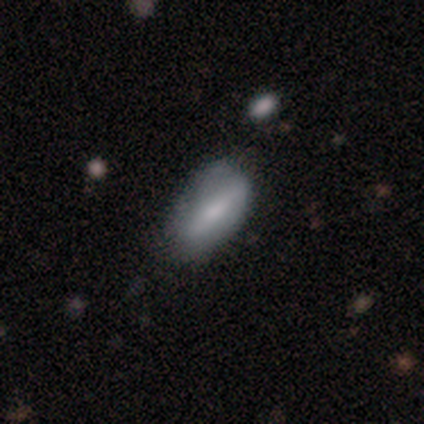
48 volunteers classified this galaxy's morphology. type=smooth (67%); roundness=in between (81%); merging=none (67%).